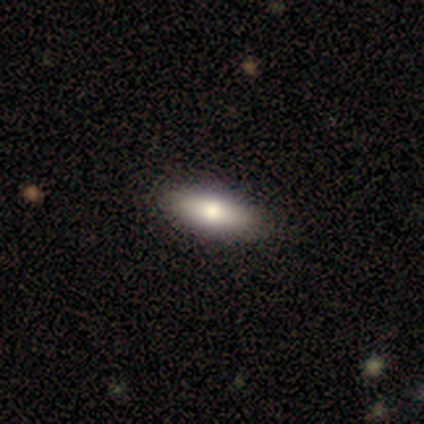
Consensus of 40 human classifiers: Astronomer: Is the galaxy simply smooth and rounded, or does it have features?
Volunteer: smooth — 78%.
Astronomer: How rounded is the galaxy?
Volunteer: in between — 71%.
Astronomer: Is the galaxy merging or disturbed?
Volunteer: none — 77%.